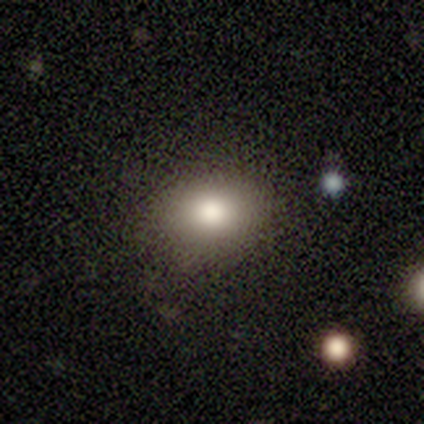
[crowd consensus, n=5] Smooth or featured?
  - smooth: 80% *
  - star or artifact: 20%
  - featured or disk: 0%
How rounded?
  - in between: 75% *
  - round: 25%
  - cigar-shaped: 0%
Merging?
  - none: 100% *
  - minor disturbance: 0%
  - major disturbance: 0%
  - merger: 0%